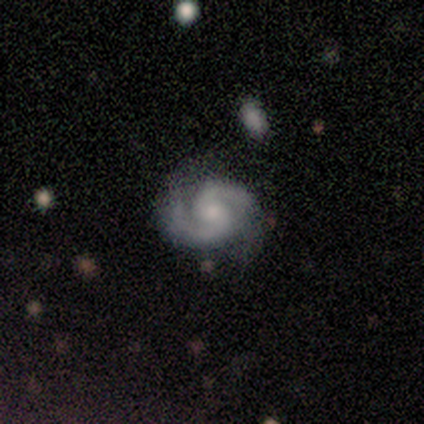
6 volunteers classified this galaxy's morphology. Volunteers were most divided on "bulge size": moderate: 50%, small: 33%, none: 17%, dominant: 0%, large: 0%. More confident: smooth or featured — featured or disk (100%); edge-on disk — no (100%); spiral arms — yes (100%); spiral arm count — 2 (100%); spiral winding — medium (83%); merging — none (83%); bar — no (67%).